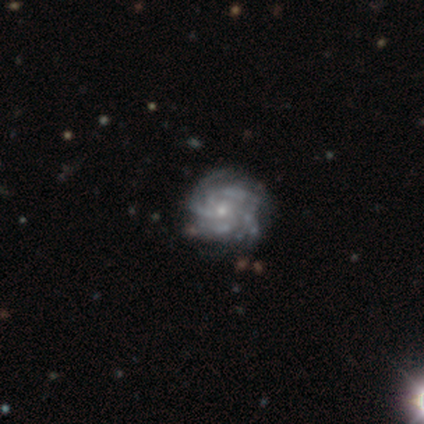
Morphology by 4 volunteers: This appears to be a featured or disk galaxy (100%) with no bar (75%), tight (75%) spiral arms (100%) and a small central bulge (75%). Merging: none (50%, tied with minor disturbance).